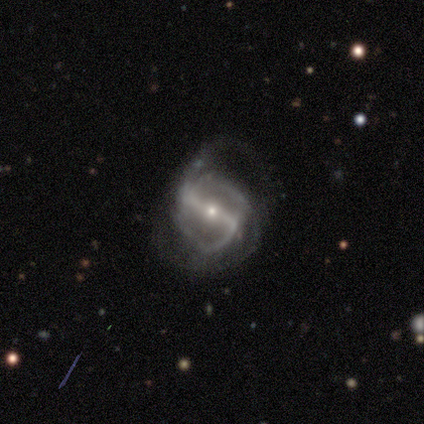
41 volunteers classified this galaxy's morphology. smooth_or_featured: featured or disk (p=0.93) [alt: smooth p=0.07]
disk_edge_on: no (p=0.97) [alt: yes p=0.03]
bar: strong (p=0.89) [alt: weak p=0.11]
has_spiral_arms: yes (p=0.89) [alt: no p=0.11]
spiral_winding: medium (p=0.52) [alt: loose p=0.42]
spiral_arm_count: 2 (p=0.55) [alt: can't tell p=0.21]
bulge_size: small (p=0.81) [alt: moderate p=0.16]
merging: major disturbance (p=0.56) [alt: minor disturbance p=0.22]